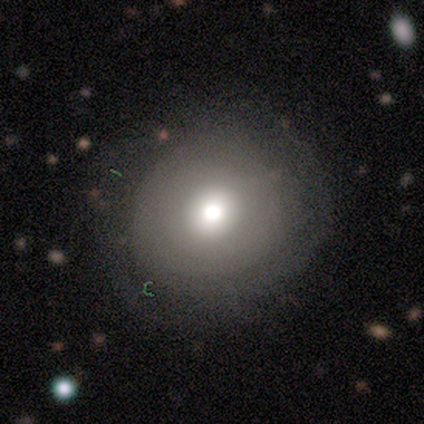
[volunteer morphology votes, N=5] Smooth or featured: smooth — 60% (featured or disk — 40%)
How rounded: round — 67% (in between — 33%)
Merging: none — 60% (minor disturbance — 40%)